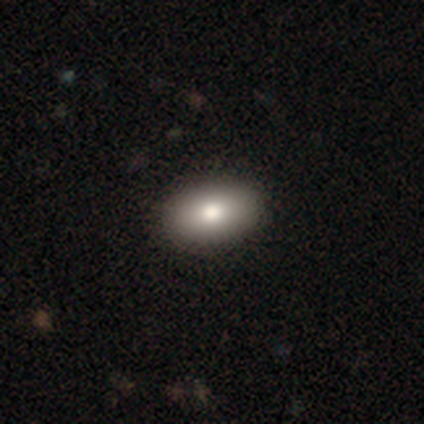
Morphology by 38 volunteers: smooth_or_featured: smooth (p=0.87) [alt: featured or disk p=0.13]
how_rounded: in between (p=0.94) [alt: round p=0.06]
merging: none (p=0.61) [alt: major disturbance p=0.03]